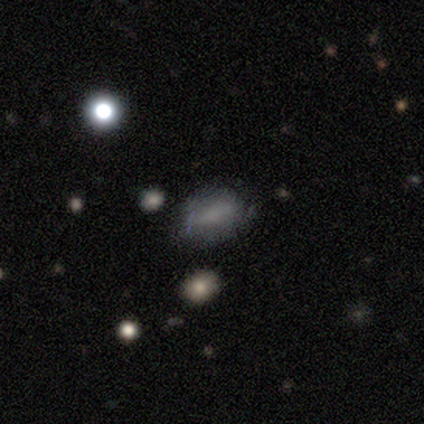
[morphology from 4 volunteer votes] smooth 75%, star or artifact 25%, featured or disk 0%. Down the decision tree: how rounded — in between (67%); merging — none (100%).